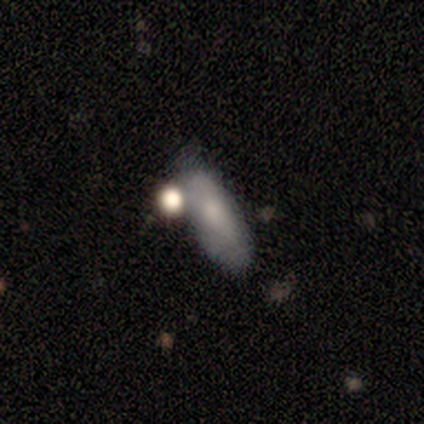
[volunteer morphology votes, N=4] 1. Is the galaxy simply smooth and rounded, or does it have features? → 100% smooth, 0% featured or disk, 0% star or artifact.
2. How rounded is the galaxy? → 50% in between (tied), 50% cigar-shaped (tied), 0% round.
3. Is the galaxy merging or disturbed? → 50% none (tied), 50% merger (tied), 0% minor disturbance, 0% major disturbance.